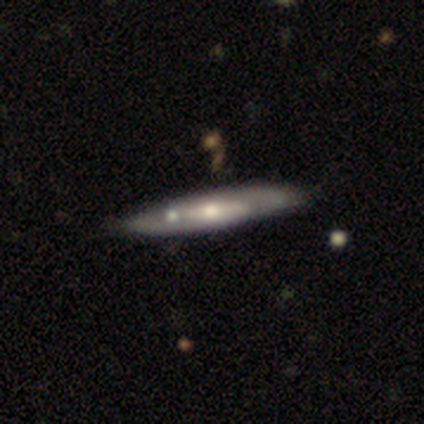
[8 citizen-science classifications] Smooth or featured? 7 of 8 (88%) said featured or disk. Edge-on disk? 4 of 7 (57%) said no. Bar? 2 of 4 (50%) said no. Spiral arms? 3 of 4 (75%) said yes. Spiral winding? 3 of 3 (100%) said medium. Spiral arm count? 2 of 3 (67%) said can't tell. Bulge size? 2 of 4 (50%, tied with small) said moderate. Merging? 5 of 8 (62%) said minor disturbance.